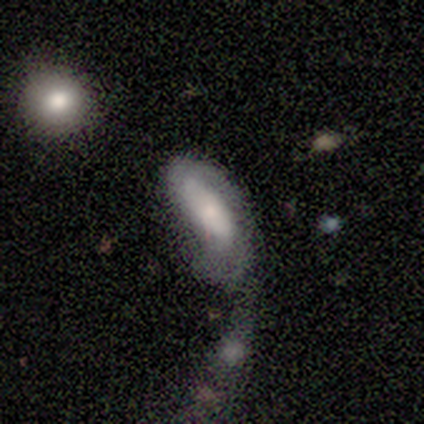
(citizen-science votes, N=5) Volunteers were most divided on "smooth or featured" (2-way tie): smooth: 40%, featured or disk: 40%, star or artifact: 20%. More confident: how rounded — in between (100%); merging — none (50%).